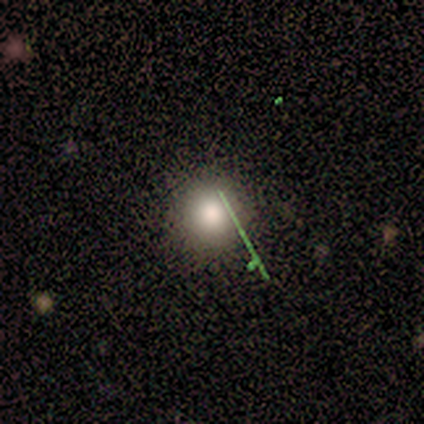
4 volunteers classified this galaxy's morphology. type=smooth (50%, tied with star or artifact); roundness=round (50%, tied with in between); merging=none (100%).